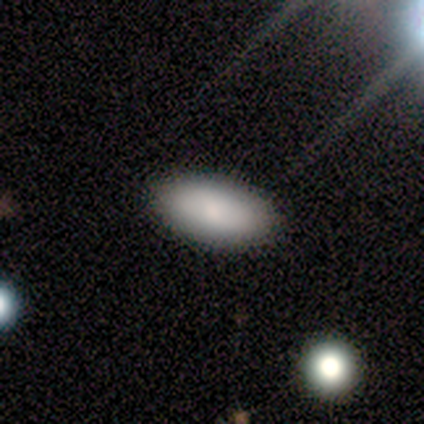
Smooth or featured? smooth (100%)
How rounded? in between (100%)
Merging? none (75%)